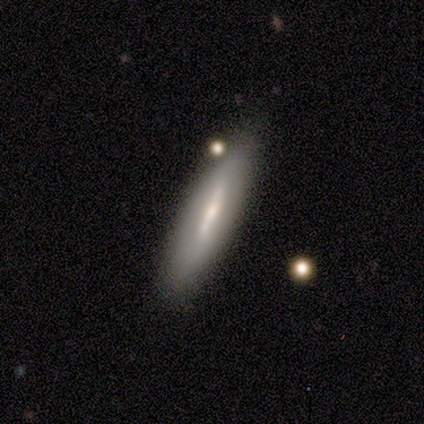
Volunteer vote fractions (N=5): smooth_or_featured: featured or disk (p=1.00)
disk_edge_on: yes (p=0.60) [alt: no p=0.40]
edge_on_bulge: none (p=0.67) [alt: boxy p=0.33]
merging: none (p=1.00)